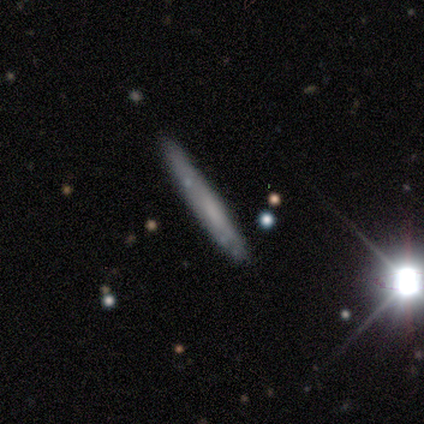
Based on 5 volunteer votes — Q: Smooth or featured?
A: featured or disk (60%); runner-up: smooth (40%)
Q: Edge-on disk?
A: yes (100%)
Q: Edge-on bulge?
A: none (100%)
Q: Merging?
A: none (80%); runner-up: major disturbance (20%)